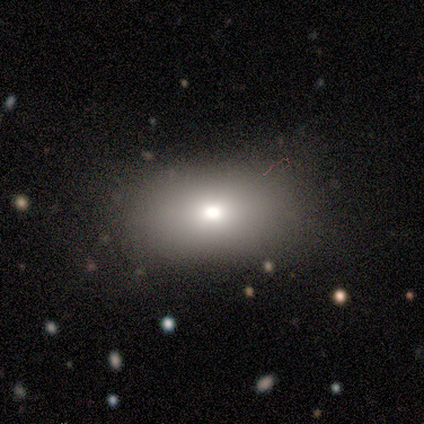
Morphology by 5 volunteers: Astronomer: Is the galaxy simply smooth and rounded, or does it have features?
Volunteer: smooth — 40%, tied with featured or disk at 40%.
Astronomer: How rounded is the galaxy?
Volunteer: in between — 100%.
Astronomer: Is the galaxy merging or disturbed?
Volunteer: none — 100%.